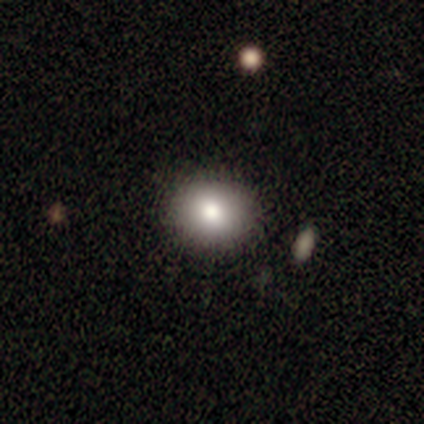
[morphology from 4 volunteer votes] smooth 100%, featured or disk 0%, star or artifact 0%. Down the decision tree: how rounded — round (50%, tied with in between); merging — none (75%).